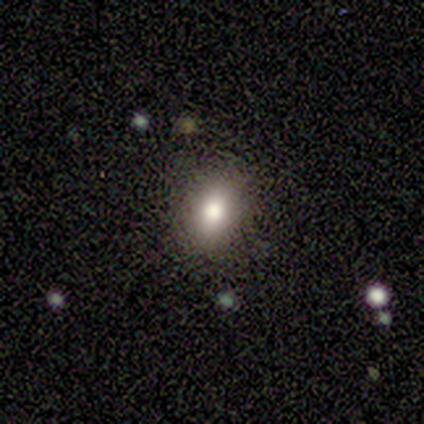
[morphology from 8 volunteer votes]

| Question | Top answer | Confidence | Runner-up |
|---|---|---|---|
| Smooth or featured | smooth | 88% | star or artifact (12%) |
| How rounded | in between | 57% | round (43%) |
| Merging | none | 86% | minor disturbance (14%) |